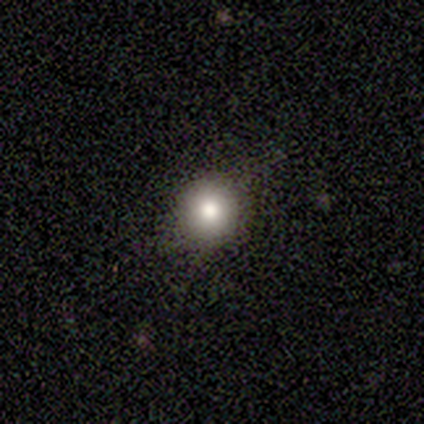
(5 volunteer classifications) Volunteers were most divided on "smooth or featured": smooth: 60%, featured or disk: 20%, star or artifact: 20%. More confident: how rounded — round (100%); merging — none (100%).